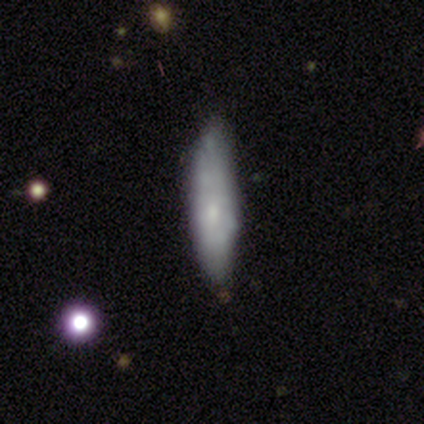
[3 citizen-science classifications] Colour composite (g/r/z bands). It shows a smooth galaxy with no disk features (67%) that is cigar-shaped (100%). Merging: none (100%).